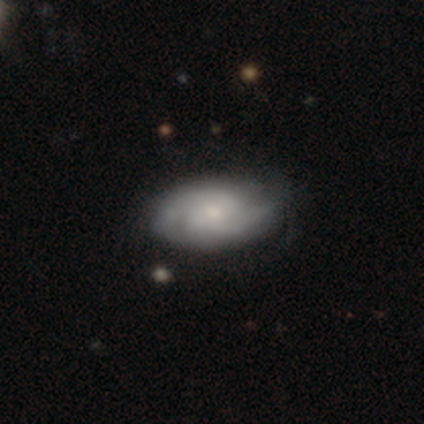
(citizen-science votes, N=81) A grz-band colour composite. It shows a featured or disk galaxy (70%) with no bar (73%), 2 (59%) tight (53%) spiral arms (91%) and a small central bulge (55%). Merging: none (35%).